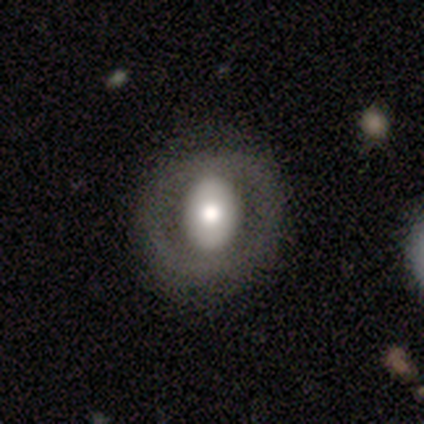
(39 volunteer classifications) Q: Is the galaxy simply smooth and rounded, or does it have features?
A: featured or disk — 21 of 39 (54%).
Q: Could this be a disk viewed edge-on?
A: no — 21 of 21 (100%).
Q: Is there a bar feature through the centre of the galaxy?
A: no — 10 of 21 (48%).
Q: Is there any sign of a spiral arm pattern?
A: no — 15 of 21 (71%).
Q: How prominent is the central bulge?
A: moderate — 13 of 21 (62%).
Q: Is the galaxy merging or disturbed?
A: none — 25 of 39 (64%).